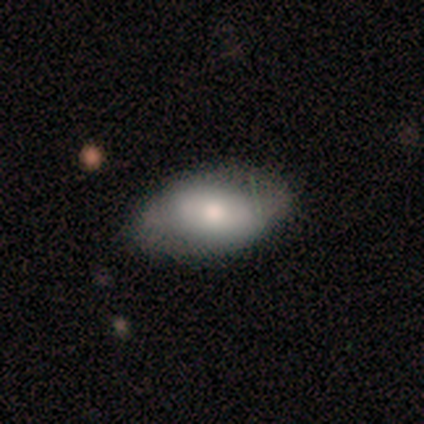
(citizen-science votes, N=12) Volunteers were most divided on "merging": none: 67%, minor disturbance: 33%, major disturbance: 0%, merger: 0%. More confident: how rounded — in between (90%); smooth or featured — smooth (83%).